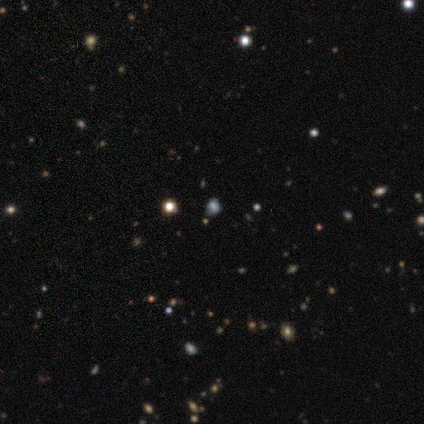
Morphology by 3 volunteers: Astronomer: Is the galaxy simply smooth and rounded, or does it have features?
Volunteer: smooth — 33%, tied with featured or disk and star or artifact at 33%.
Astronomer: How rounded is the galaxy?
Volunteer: round — 100%.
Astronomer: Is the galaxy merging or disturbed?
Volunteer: none — 100%.